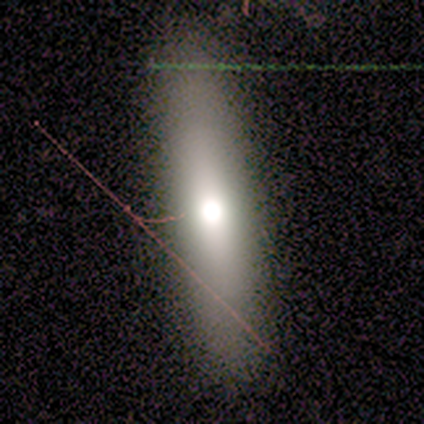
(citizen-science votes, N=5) smooth 60%, star or artifact 40%, featured or disk 0%. Down the decision tree: how rounded — cigar-shaped (67%); merging — none (67%).